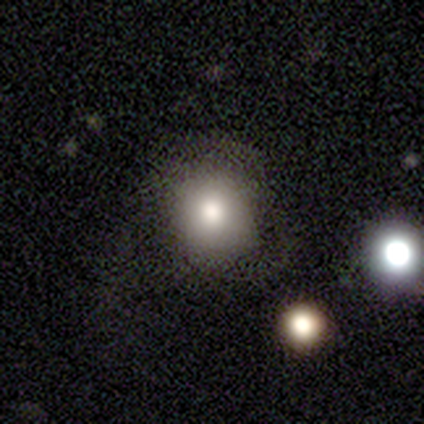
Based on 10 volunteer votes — A smooth galaxy with no disk features (90%) that is round (67%). Merging: none (78%).